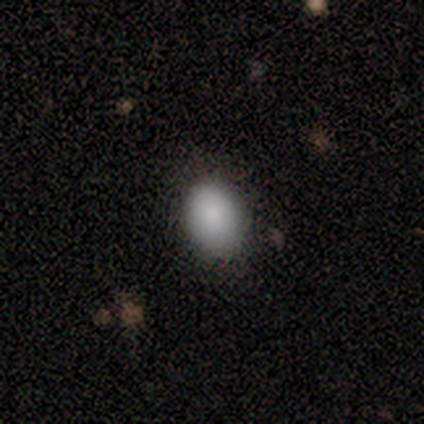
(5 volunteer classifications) Smooth or featured?
  - smooth: 80% *
  - featured or disk: 20%
  - star or artifact: 0%
How rounded?
  - in between: 100% *
  - round: 0%
  - cigar-shaped: 0%
Merging?
  - none: 60% *
  - minor disturbance: 40%
  - major disturbance: 0%
  - merger: 0%